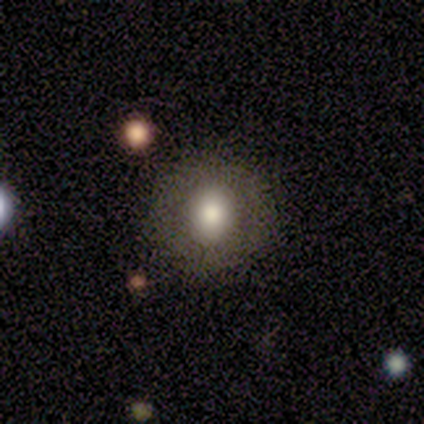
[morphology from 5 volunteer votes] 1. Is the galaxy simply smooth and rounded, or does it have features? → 60% smooth, 40% featured or disk, 0% star or artifact.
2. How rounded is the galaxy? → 100% round, 0% in between, 0% cigar-shaped.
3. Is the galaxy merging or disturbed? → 80% none, 20% merger, 0% minor disturbance, 0% major disturbance.